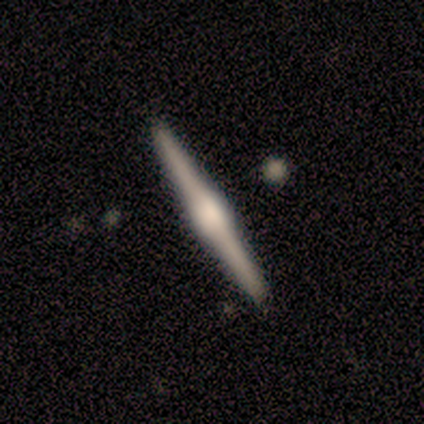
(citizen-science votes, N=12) smooth-or-featured: featured or disk: 83% | smooth: 17% | star or artifact: 0%
  disk-edge-on: yes: 100% | no: 0%
    edge-on-bulge: rounded: 60% | boxy: 40% | none: 0%
  merging: none: 83% | minor disturbance: 8% | merger: 8% | major disturbance: 0%